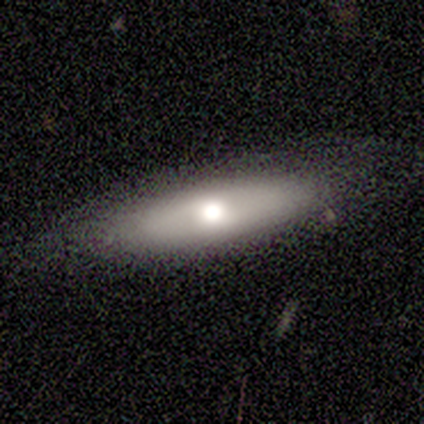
A smooth galaxy with no disk features (100%) that is in between round and cigar-shaped (60%).

Vote fractions:
- Smooth or featured? smooth: 100% / featured or disk: 0% / star or artifact: 0%
- How rounded? in between: 60% / cigar-shaped: 40% / round: 0%
- Merging? none: 60% / minor disturbance: 40% / major disturbance: 0% / merger: 0%